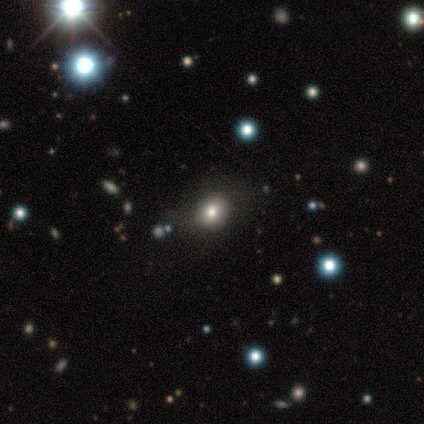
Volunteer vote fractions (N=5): A smooth galaxy with no disk features (100%) that is round (60%).

Vote fractions:
- Smooth or featured? smooth: 100% / featured or disk: 0% / star or artifact: 0%
- How rounded? round: 60% / in between: 40% / cigar-shaped: 0%
- Merging? none: 80% / minor disturbance: 20% / major disturbance: 0% / merger: 0%